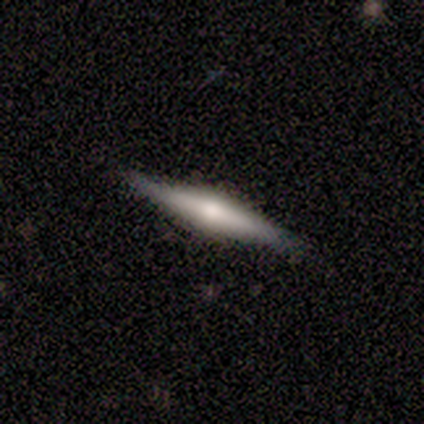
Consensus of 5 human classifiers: This is clearly a featured or disk galaxy (80%). It is clearly viewed edge-on (100%). Edge-on bulge: likely rounded (75%). Merging: clearly none (80%).